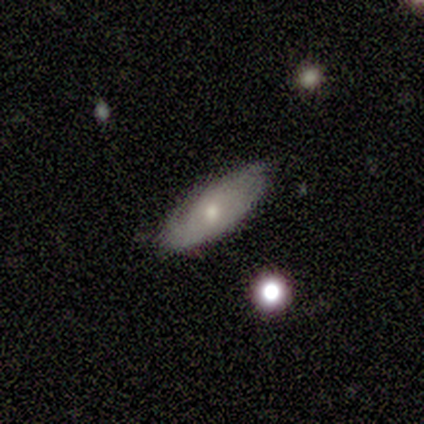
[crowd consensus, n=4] Q: Smooth or featured?
A: smooth (75%); runner-up: featured or disk (25%)
Q: How rounded?
A: in between (67%); runner-up: cigar-shaped (33%)
Q: Merging?
A: none (100%)